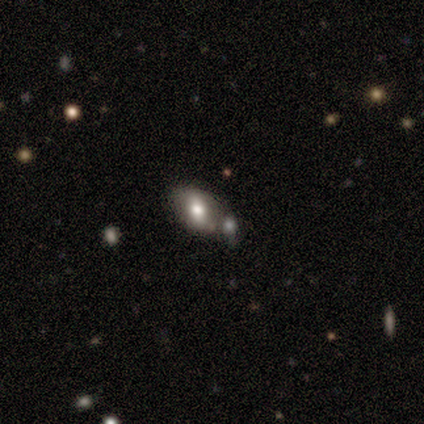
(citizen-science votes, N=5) This is likely a smooth galaxy (60%). How rounded: clearly in between (100%). Merging: likely none (75%).